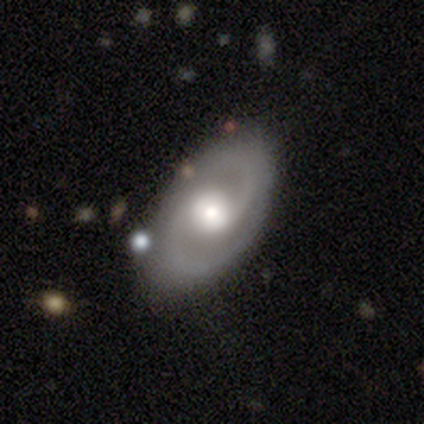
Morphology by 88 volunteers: Smooth or featured? featured or disk (85%)
Edge-on disk? no (97%)
Bar? no (56%)
Spiral arms? yes (96%)
Spiral winding? medium (60%)
Spiral arm count? 2 (96%)
Bulge size? moderate (60%)
Merging? none (83%)